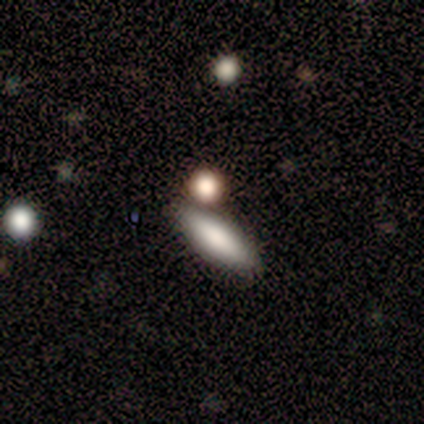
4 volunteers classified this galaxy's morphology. Smooth or featured? smooth (100%)
How rounded? in between (100%)
Merging? none (75%)